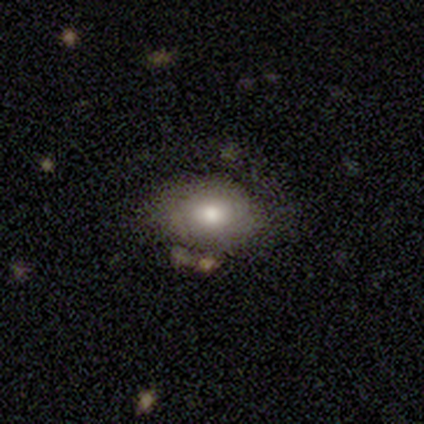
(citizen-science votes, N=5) smooth_or_featured: smooth (p=1.00)
how_rounded: round (p=0.60) [alt: in between p=0.40]
merging: none (p=0.80) [alt: minor disturbance p=0.20]